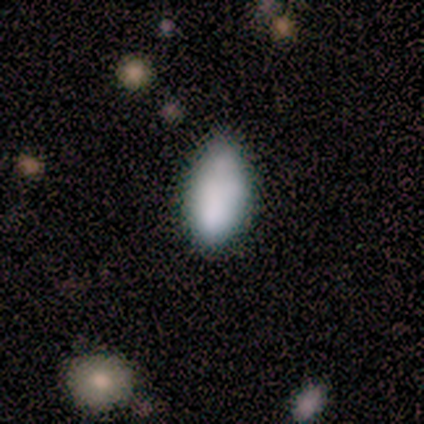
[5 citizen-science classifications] Smooth or featured? 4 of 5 (80%) said smooth. How rounded? 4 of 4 (100%) said in between. Merging? 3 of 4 (75%) said none.